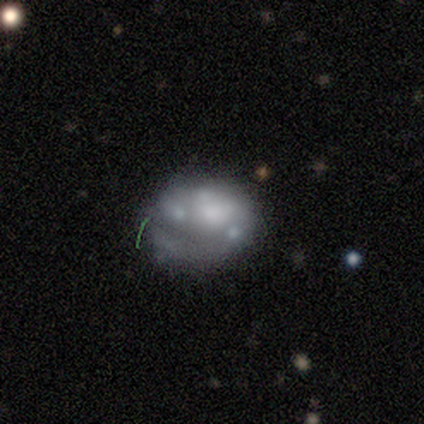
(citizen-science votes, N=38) Smooth or featured? featured or disk (63%)
Edge-on disk? no (100%)
Bar? no (100%)
Spiral arms? no (75%)
Bulge size? moderate (33%)
Merging? none (44%)